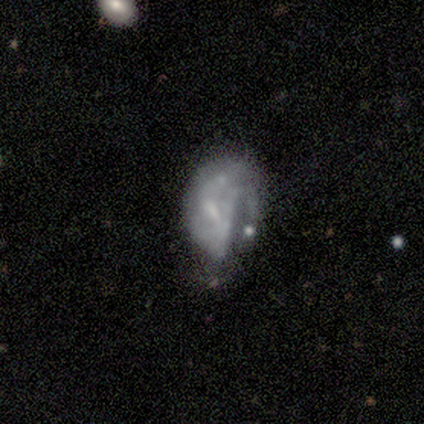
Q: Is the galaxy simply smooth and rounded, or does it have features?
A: smooth — 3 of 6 (50%, tied with featured or disk).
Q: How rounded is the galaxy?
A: in between — 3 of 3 (100%).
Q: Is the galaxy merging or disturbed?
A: none — 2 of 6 (33%, tied with minor disturbance and major disturbance).